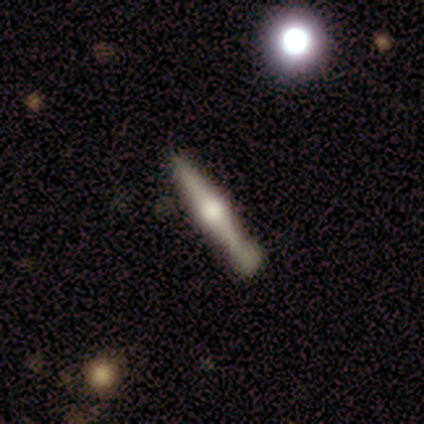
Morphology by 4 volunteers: type=featured or disk (75%); edge-on=yes (100%); edge-on bulge=rounded (100%); merging=none (75%).